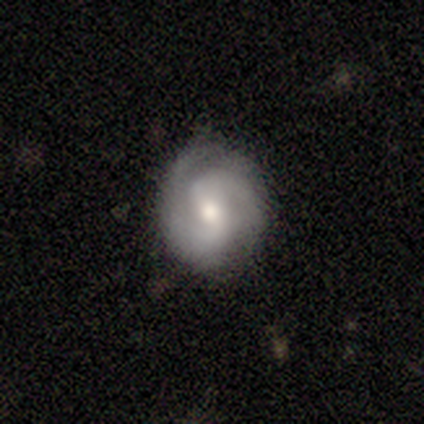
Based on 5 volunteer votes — Smooth or featured?
  - featured or disk: 60% *
  - smooth: 40%
  - star or artifact: 0%
Edge-on disk?
  - no: 100% *
  - yes: 0%
Bar?
  - weak: 67% *
  - no: 33%
  - strong: 0%
Spiral arms?
  - yes: 100% *
  - no: 0%
Spiral winding?
  - medium: 67% *
  - tight: 33%
  - loose: 0%
Spiral arm count?
  - 2: 100% *
  - 1: 0%
  - 3: 0%
  - 4: 0%
  - more than 4: 0%
  - can't tell: 0%
Bulge size?
  - moderate: 100% *
  - dominant: 0%
  - large: 0%
  - small: 0%
  - none: 0%
Merging?
  - none: 100% *
  - minor disturbance: 0%
  - major disturbance: 0%
  - merger: 0%